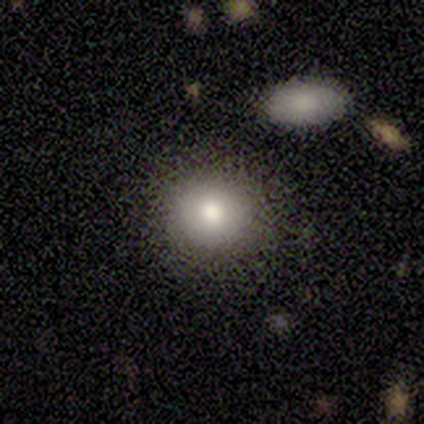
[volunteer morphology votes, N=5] Smooth or featured?
  - smooth: 100% *
  - featured or disk: 0%
  - star or artifact: 0%
How rounded?
  - round: 80% *
  - in between: 20%
  - cigar-shaped: 0%
Merging?
  - none: 100% *
  - minor disturbance: 0%
  - major disturbance: 0%
  - merger: 0%